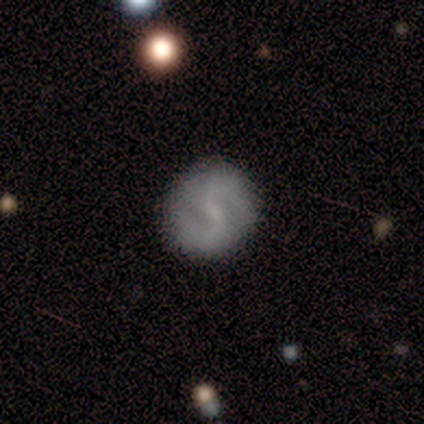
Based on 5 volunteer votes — This appears to be a featured or disk galaxy (80%) with no bar (75%), 2 (75%) loose (50%) spiral arms (100%) and a small central bulge (50%, tied with none). Merging: none (100%).